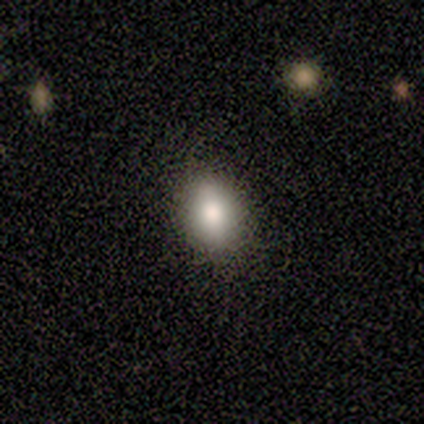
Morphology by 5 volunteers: Volunteers were most divided on "merging": none: 60%, minor disturbance: 40%, major disturbance: 0%, merger: 0%. More confident: how rounded — in between (100%); smooth or featured — smooth (80%).